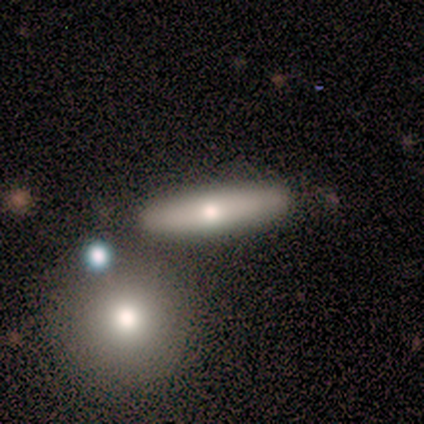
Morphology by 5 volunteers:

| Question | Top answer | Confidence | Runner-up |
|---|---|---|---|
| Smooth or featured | smooth | 60% | featured or disk (40%) |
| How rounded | cigar-shaped | 100% | — |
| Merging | none | 60% | minor disturbance (20%) |